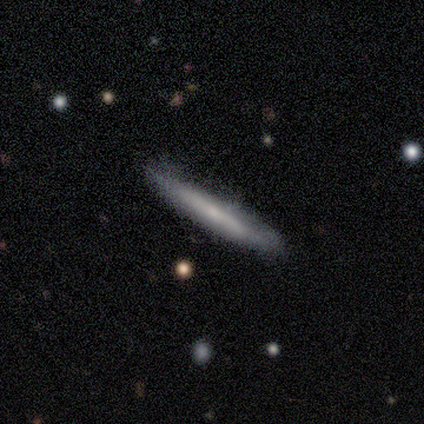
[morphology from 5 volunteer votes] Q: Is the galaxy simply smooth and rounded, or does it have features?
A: featured or disk — 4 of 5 (80%).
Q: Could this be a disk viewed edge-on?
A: yes — 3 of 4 (75%).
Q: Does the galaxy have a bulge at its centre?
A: rounded — 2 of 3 (67%).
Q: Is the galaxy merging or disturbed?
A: none — 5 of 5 (100%).